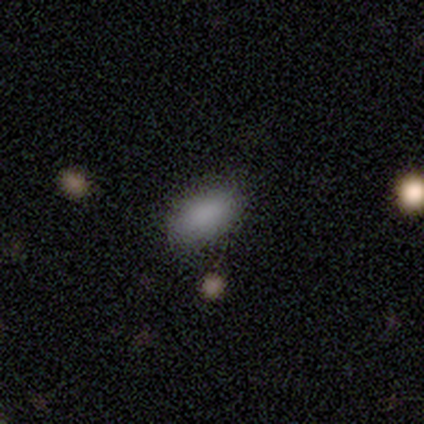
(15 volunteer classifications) Smooth or featured: smooth — 100%
How rounded: in between — 93% (round — 7%)
Merging: none — 87% (minor disturbance — 7%)